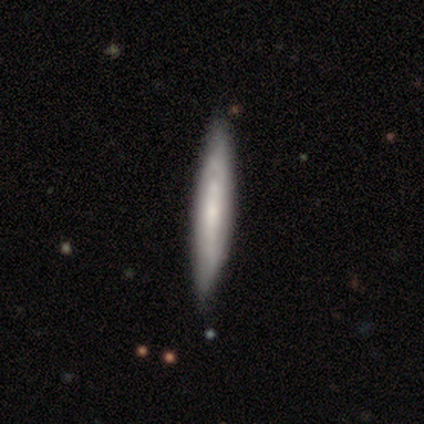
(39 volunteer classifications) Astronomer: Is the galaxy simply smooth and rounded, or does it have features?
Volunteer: smooth — 56% (runner-up: featured or disk, 38%).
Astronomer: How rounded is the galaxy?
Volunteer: cigar-shaped — 91%.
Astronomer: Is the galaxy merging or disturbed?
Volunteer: none — 78%.